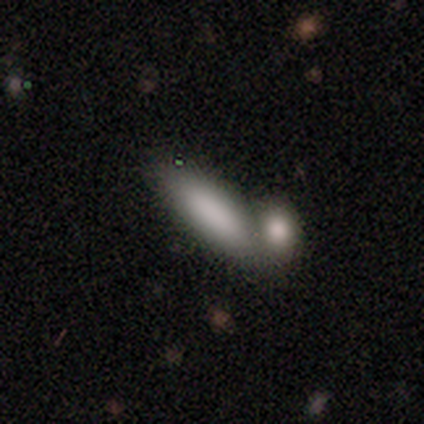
smooth 91%, star or artifact 6%, featured or disk 3%. Down the decision tree: how rounded — in between (67%); merging — merger (55%).